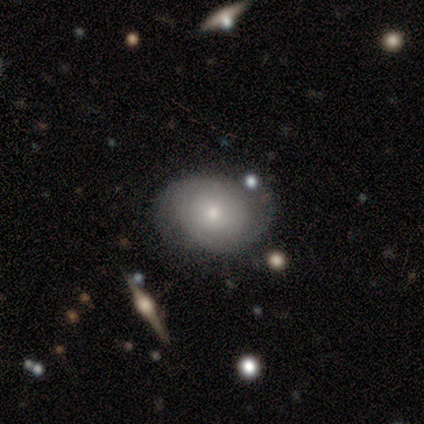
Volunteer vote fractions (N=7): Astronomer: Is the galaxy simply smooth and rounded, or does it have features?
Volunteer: featured or disk — 71%.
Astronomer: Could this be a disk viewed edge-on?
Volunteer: no — 100%.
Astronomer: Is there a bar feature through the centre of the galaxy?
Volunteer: no — 100%.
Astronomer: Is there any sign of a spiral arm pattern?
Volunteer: yes — 80%.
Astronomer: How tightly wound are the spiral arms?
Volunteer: tight — 50%.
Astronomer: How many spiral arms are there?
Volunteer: can't tell — 100%.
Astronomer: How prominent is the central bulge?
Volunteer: moderate — 60% (runner-up: small, 40%).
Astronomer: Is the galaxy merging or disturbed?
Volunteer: none — 100%.